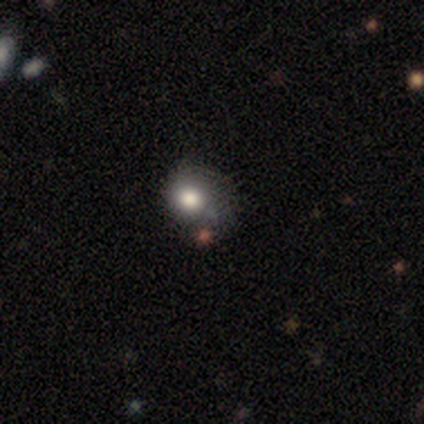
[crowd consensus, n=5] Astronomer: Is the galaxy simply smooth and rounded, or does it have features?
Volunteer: featured or disk — 60%.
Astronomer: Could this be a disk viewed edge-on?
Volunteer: no — 100%.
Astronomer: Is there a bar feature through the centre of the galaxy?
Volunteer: no — 67%.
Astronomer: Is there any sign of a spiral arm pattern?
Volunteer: no — 67%.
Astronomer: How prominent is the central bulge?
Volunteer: large — 67%.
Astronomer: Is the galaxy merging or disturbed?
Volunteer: none — 75%.